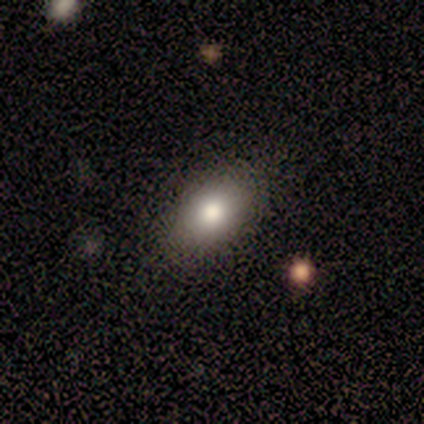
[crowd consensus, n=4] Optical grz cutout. It shows a smooth galaxy with no disk features (75%) that is in between round and cigar-shaped (100%). Merging: none (100%).